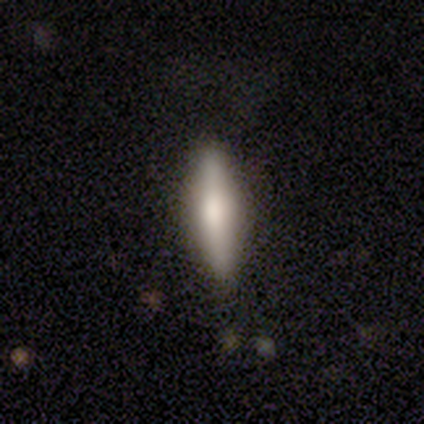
smooth 66%, featured or disk 32%, star or artifact 3%. Down the decision tree: how rounded — cigar-shaped (75%); merging — none (55%).